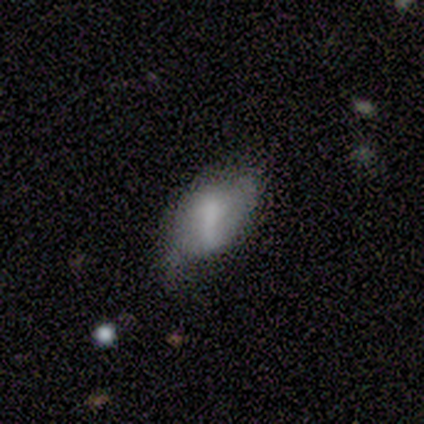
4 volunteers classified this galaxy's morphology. Smooth or featured? smooth (50%, tied with featured or disk)
How rounded? in between (100%)
Merging? none (100%)